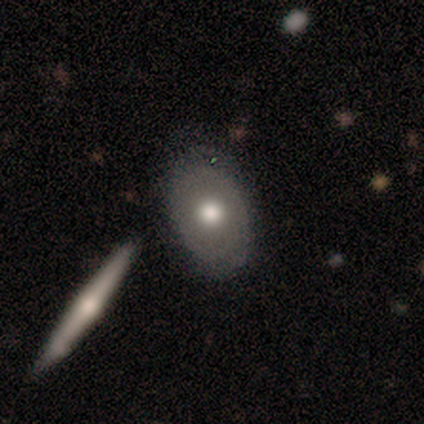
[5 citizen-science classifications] Volunteers were most divided on "smooth or featured": smooth: 60%, featured or disk: 40%, star or artifact: 0%. More confident: how rounded — in between (67%); merging — minor disturbance (60%).